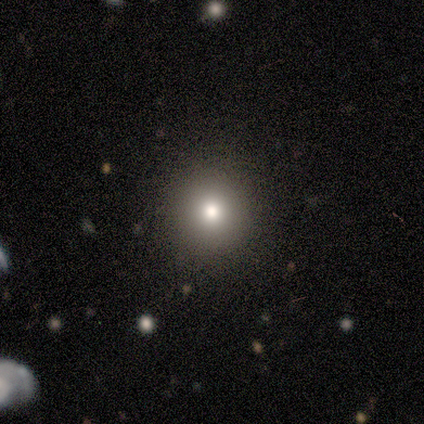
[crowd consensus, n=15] This is likely a smooth galaxy (67%). How rounded: clearly round (100%). Merging: clearly none (100%).